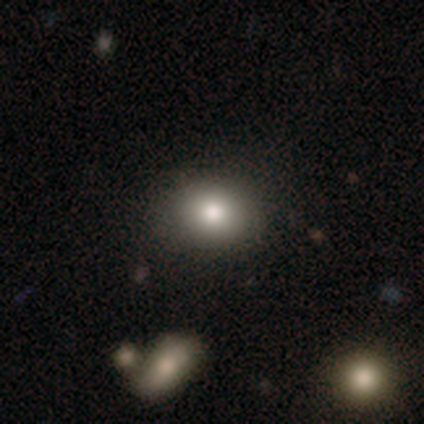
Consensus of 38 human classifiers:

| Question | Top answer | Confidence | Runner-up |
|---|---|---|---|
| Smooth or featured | smooth | 87% | star or artifact (8%) |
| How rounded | round | 58% | in between (42%) |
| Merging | none | 77% | minor disturbance (17%) |